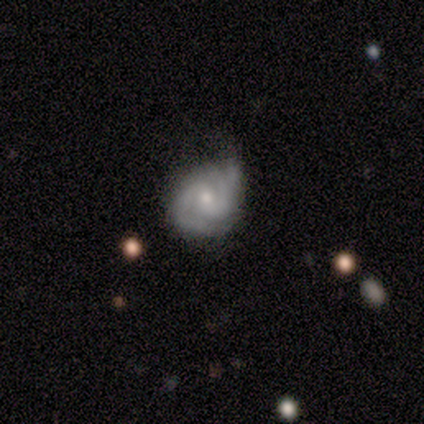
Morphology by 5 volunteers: Smooth or featured: featured or disk — 80% (star or artifact — 20%)
Edge-on disk: no — 100%
Bar: weak — 50% (tied with no — 50%)
Spiral arms: yes — 100%
Spiral winding: tight — 50% (tied with medium — 50%)
Spiral arm count: 2 — 50% (tied with 3 — 50%)
Bulge size: small — 100%
Merging: minor disturbance — 50% (none — 25%)